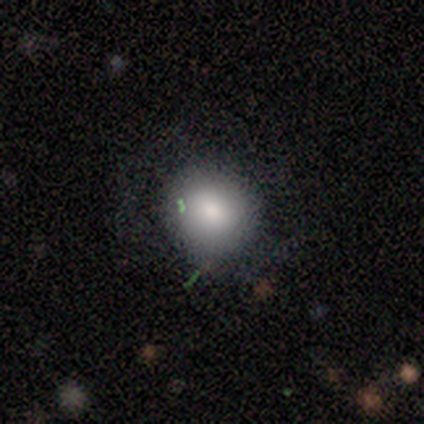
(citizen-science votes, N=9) Smooth or featured? smooth (78%)
How rounded? round (100%)
Merging? none (89%)